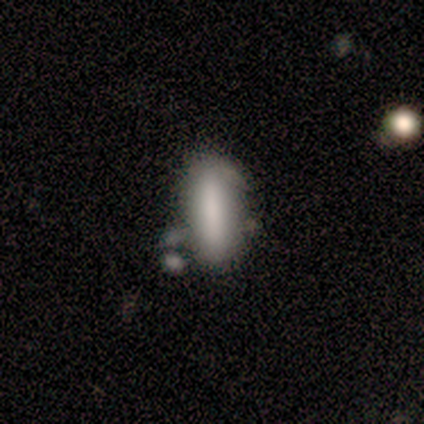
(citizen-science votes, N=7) A smooth galaxy with no disk features (86%) that is in between round and cigar-shaped (100%). Merging: none (57%).